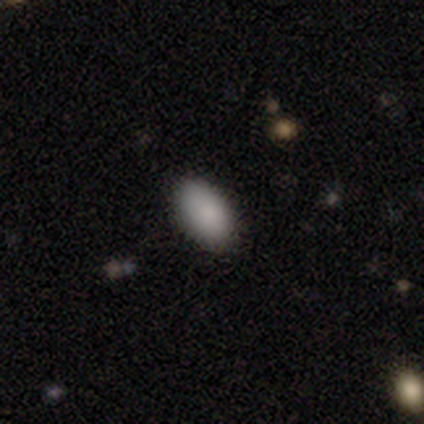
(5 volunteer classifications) Morphology: type=smooth (80%); roundness=in between (100%); merging=none (100%).